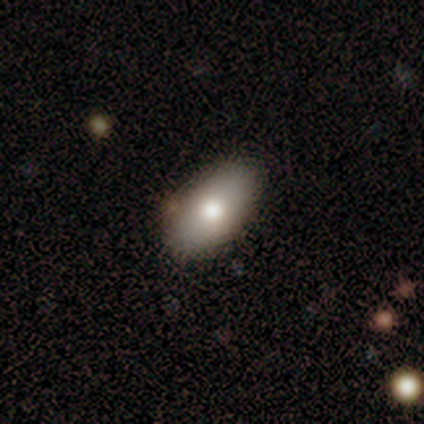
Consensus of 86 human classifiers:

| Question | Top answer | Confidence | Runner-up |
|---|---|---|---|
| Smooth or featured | smooth | 77% | featured or disk (13%) |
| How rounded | in between | 92% | round (5%) |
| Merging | none | 84% | minor disturbance (9%) |